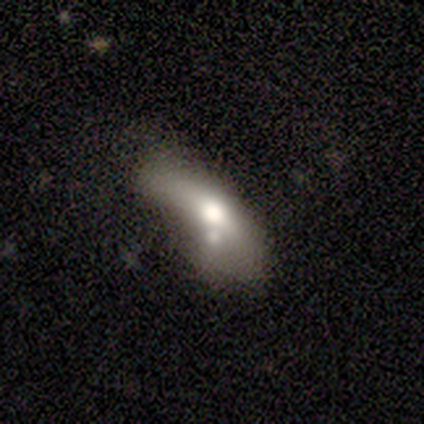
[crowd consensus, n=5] Morphology: type=smooth (80%); roundness=in between (75%); merging=minor disturbance (60%).